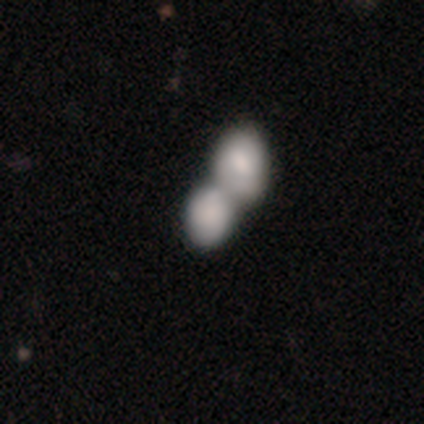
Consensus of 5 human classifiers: smooth 80%, star or artifact 20%, featured or disk 0%. Down the decision tree: how rounded — in between (100%); merging — merger (100%).